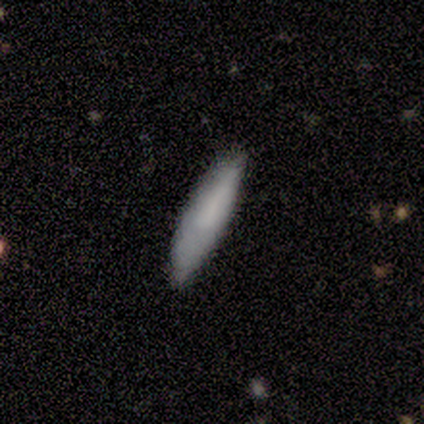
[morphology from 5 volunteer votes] Smooth or featured? smooth (80%)
How rounded? cigar-shaped (75%)
Merging? none (60%)